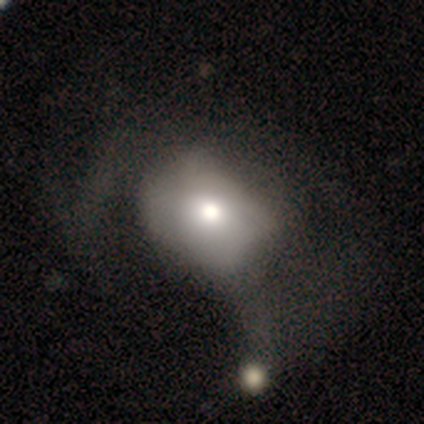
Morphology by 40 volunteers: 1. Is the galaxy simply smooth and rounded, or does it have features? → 55% smooth, 42% featured or disk, 2% star or artifact.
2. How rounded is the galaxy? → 59% round, 41% in between, 0% cigar-shaped.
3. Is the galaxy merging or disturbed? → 28% major disturbance, 18% merger, 10% none, 10% minor disturbance.